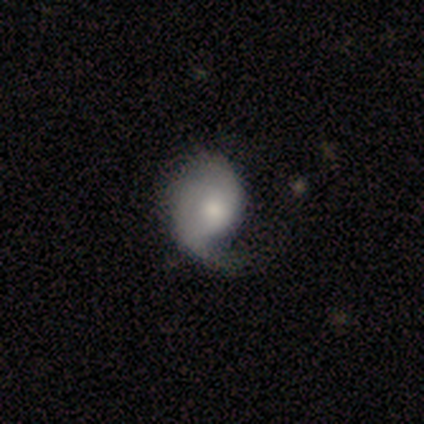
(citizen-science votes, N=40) This appears to be a featured or disk galaxy (55%) with no bar (80%), 2 (50%) medium (50%) spiral arms (80%) and a moderate central bulge (55%). Merging: major disturbance (46%).